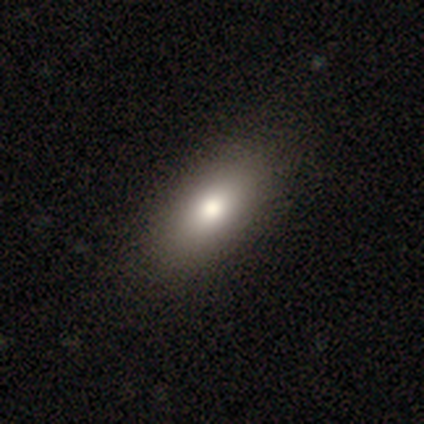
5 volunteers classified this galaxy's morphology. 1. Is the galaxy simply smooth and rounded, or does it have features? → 100% smooth, 0% featured or disk, 0% star or artifact.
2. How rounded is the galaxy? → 80% in between, 20% cigar-shaped, 0% round.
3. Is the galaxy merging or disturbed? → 80% none, 20% major disturbance, 0% minor disturbance, 0% merger.